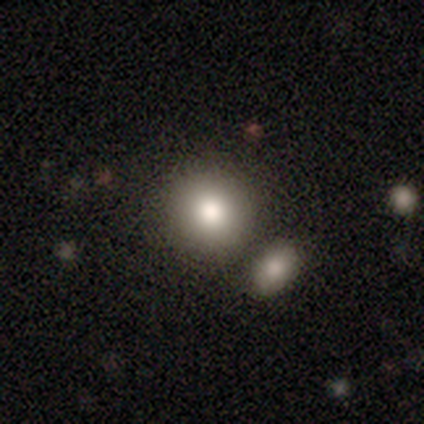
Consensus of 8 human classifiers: Smooth or featured?
  - smooth: 75% *
  - featured or disk: 25%
  - star or artifact: 0%
How rounded?
  - round: 83% *
  - in between: 17%
  - cigar-shaped: 0%
Merging?
  - none: 75% *
  - merger: 25%
  - minor disturbance: 0%
  - major disturbance: 0%